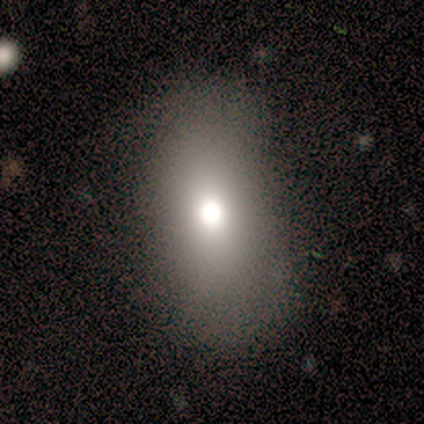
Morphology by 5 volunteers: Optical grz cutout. It shows a smooth galaxy with no disk features (80%) that is in between round and cigar-shaped (100%). Merging: none (100%).